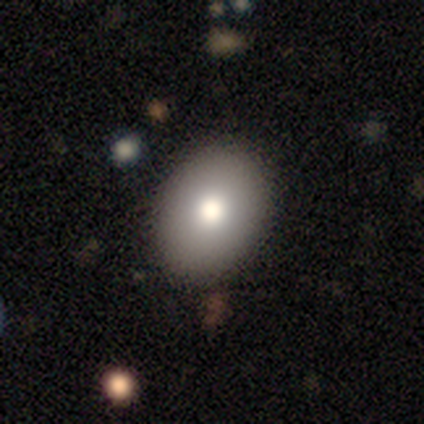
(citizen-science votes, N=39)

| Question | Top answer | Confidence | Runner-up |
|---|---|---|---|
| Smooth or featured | smooth | 79% | featured or disk (15%) |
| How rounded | in between | 68% | round (32%) |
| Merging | none | 84% | minor disturbance (14%) |